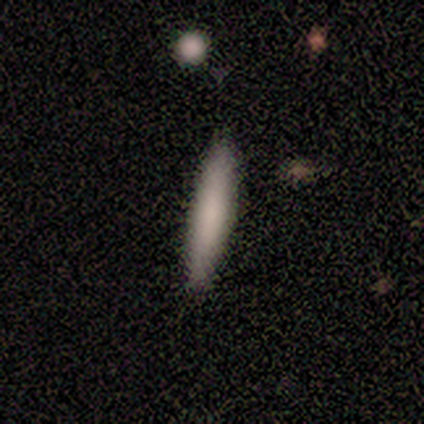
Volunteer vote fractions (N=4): A smooth galaxy with no disk features (100%) that is cigar-shaped (100%). Merging: none (75%).